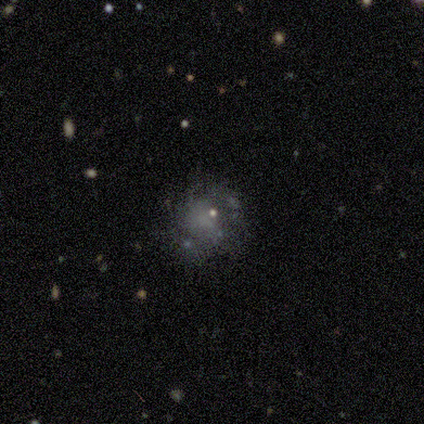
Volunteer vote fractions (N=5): Morphology: type=smooth (80%); roundness=round (50%, tied with in between); merging=none (80%).